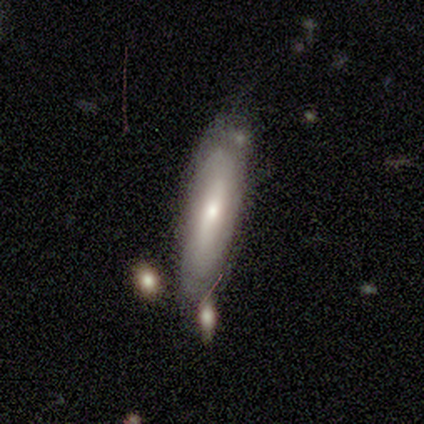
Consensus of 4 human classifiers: smooth_or_featured: featured or disk (p=0.75) [alt: smooth p=0.25]
disk_edge_on: yes (p=0.67) [alt: no p=0.33]
edge_on_bulge: none (p=0.50) [tied with: rounded p=0.50]
merging: none (p=0.50) [tied with: minor disturbance p=0.50]